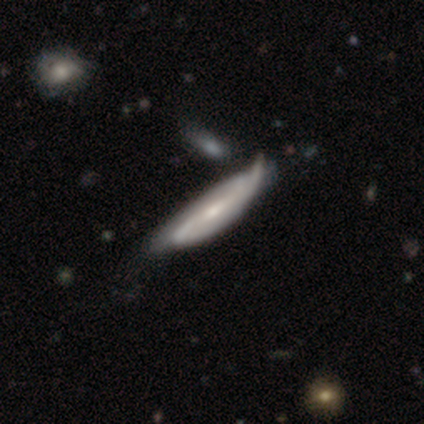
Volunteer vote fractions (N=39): This is likely a featured or disk galaxy (72%). It is likely not viewed edge-on (61%). Bar: possibly weak (53%). Spiral arm pattern: clearly yes (94%). Spiral arm count: likely 2 (62%). Spiral winding: marginally medium (38%). Central bulge: possibly small (47%). Merging: marginally minor disturbance (43%).